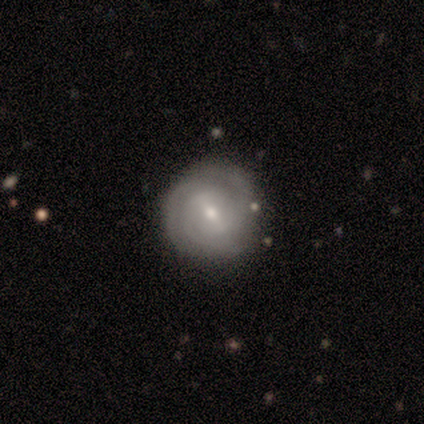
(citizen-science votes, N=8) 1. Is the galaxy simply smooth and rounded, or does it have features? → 62% featured or disk, 38% smooth, 0% star or artifact.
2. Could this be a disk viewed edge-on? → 100% no, 0% yes.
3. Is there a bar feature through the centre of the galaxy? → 60% strong, 20% weak, 20% no.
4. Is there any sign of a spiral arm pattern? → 100% yes, 0% no.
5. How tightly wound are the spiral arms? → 60% tight, 20% medium, 20% loose.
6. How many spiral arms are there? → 40% 2 (tied), 40% can't tell (tied), 20% 3, 0% 1, 0% 4, 0% more than 4.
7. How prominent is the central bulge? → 80% small, 20% moderate, 0% dominant, 0% large, 0% none.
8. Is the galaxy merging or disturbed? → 100% none, 0% minor disturbance, 0% major disturbance, 0% merger.